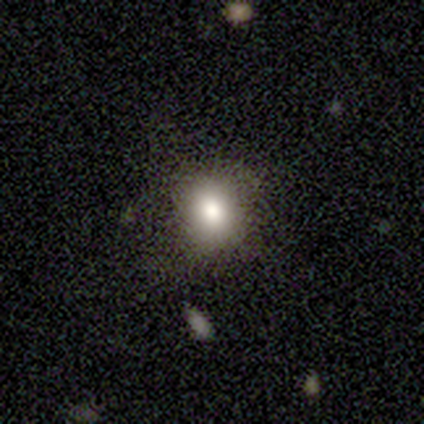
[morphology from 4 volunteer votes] A smooth galaxy with no disk features (75%) that is in between round and cigar-shaped (67%). Merging: none (100%).